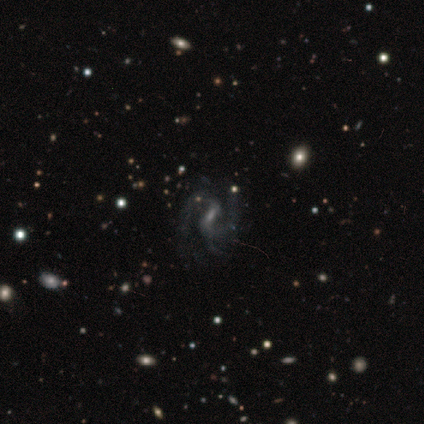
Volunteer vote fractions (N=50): A featured or disk galaxy (90%) with a weak bar (60%), 2 (95%) medium (65%) spiral arms (96%) and a small central bulge (58%). Merging: none (61%).